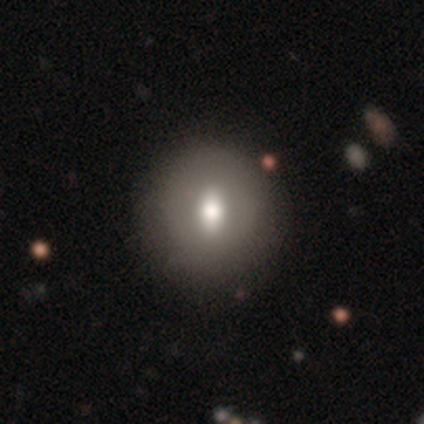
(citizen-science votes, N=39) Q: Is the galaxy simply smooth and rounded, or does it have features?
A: smooth — 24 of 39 (62%).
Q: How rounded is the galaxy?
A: round — 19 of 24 (79%).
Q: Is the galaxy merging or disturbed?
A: none — 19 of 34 (56%).